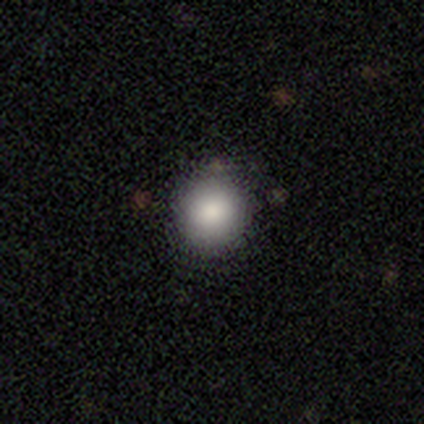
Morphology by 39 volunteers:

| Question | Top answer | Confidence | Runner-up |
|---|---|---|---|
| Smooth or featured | smooth | 90% | star or artifact (8%) |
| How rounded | round | 97% | in between (3%) |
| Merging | none | 89% | minor disturbance (8%) |